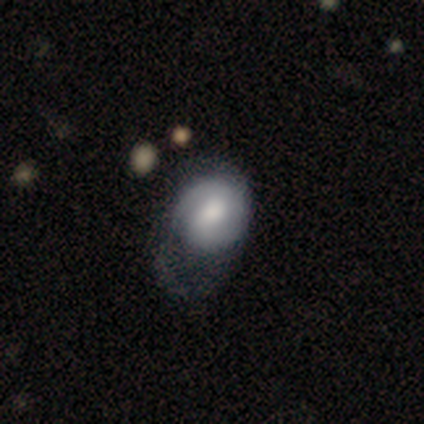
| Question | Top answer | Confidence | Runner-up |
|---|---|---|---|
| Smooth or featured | smooth | 54% | featured or disk (46%) |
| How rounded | round | 52% | in between (48%) |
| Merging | major disturbance | 33% | none (18%) |